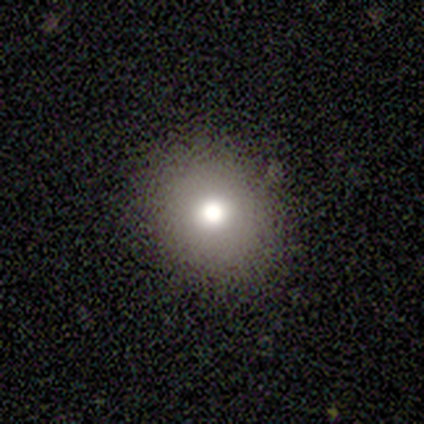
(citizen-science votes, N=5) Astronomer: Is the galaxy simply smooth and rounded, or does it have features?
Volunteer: smooth — 40%, tied with featured or disk at 40%.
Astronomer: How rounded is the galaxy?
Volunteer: round — 50%, tied with in between at 50%.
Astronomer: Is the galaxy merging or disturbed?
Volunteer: none — 100%.